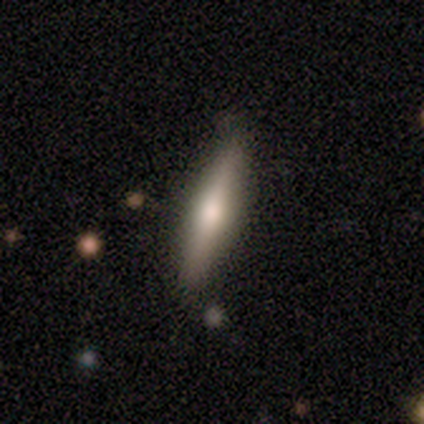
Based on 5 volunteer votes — Q: Smooth or featured?
A: smooth (60%); runner-up: featured or disk (40%)
Q: How rounded?
A: cigar-shaped (100%)
Q: Merging?
A: none (100%)